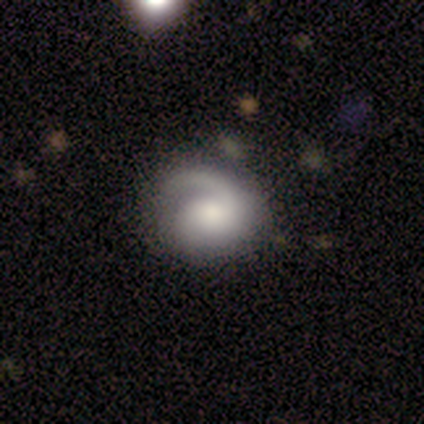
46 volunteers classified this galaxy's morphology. Smooth or featured? featured or disk (78%)
Edge-on disk? no (100%)
Bar? no (83%)
Spiral arms? yes (83%)
Spiral winding? medium (60%)
Spiral arm count? 1 (70%)
Bulge size? moderate (33%)
Merging? none (48%)